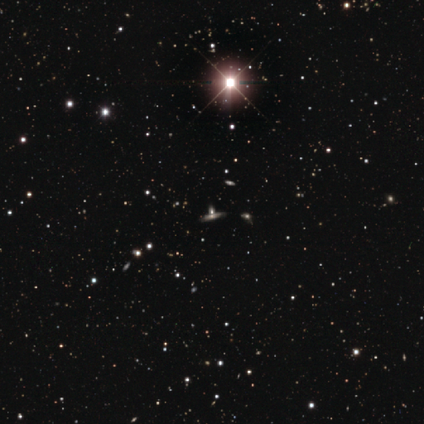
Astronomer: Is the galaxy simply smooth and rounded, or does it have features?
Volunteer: star or artifact — 50%.